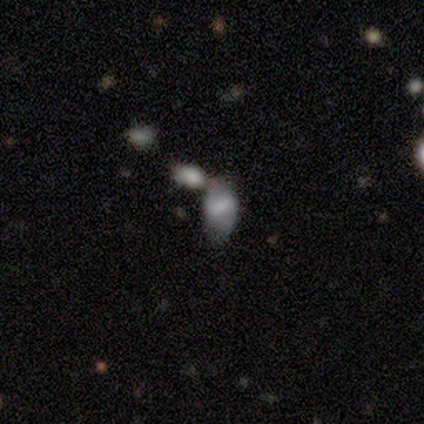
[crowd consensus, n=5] Smooth or featured?
  - smooth: 60% *
  - featured or disk: 40%
  - star or artifact: 0%
How rounded?
  - in between: 67% *
  - round: 33%
  - cigar-shaped: 0%
Merging?
  - merger: 60% *
  - none: 20%
  - major disturbance: 20%
  - minor disturbance: 0%